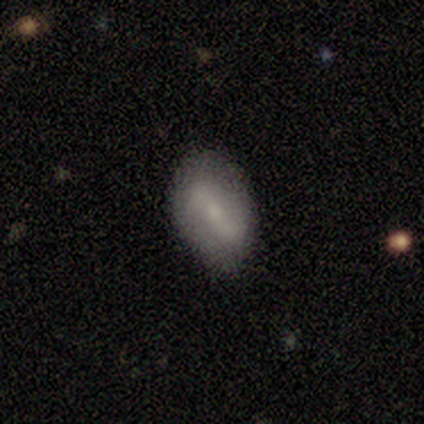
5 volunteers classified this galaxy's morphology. type=smooth (60%); roundness=in between (67%); merging=none (80%).